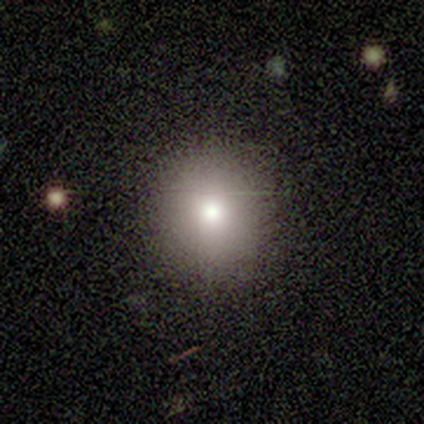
Morphology: type=smooth (40%, tied with featured or disk); roundness=round (100%); merging=none (100%).